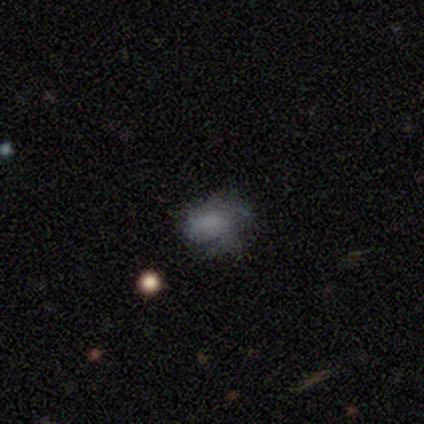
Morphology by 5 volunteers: type=smooth (60%); roundness=in between (67%); merging=minor disturbance (60%).